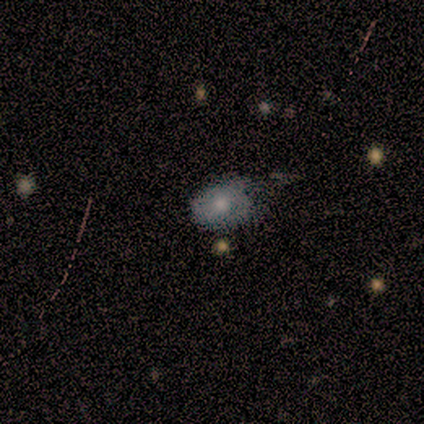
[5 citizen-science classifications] Morphology: type=featured or disk (60%); edge-on=no (100%); bar=no (100%); spiral arms=no (100%); bulge=moderate (100%); merging=none (60%).